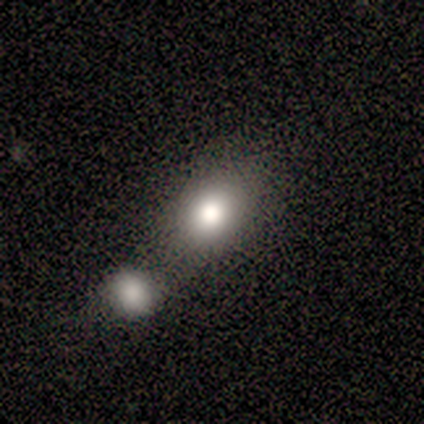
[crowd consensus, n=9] Q: Smooth or featured?
A: smooth (89%); runner-up: star or artifact (11%)
Q: How rounded?
A: in between (62%); runner-up: round (38%)
Q: Merging?
A: none (38%); tied with: merger (38%)